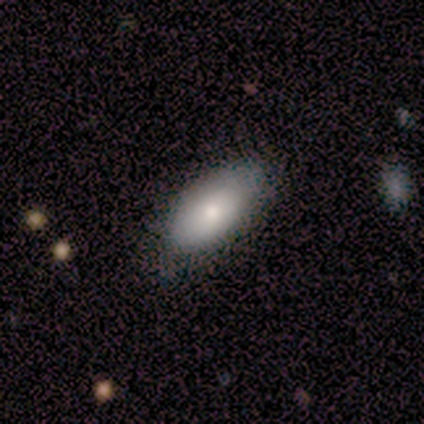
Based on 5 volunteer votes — Smooth or featured?
  - smooth: 100% *
  - featured or disk: 0%
  - star or artifact: 0%
How rounded?
  - in between: 100% *
  - round: 0%
  - cigar-shaped: 0%
Merging?
  - none: 100% *
  - minor disturbance: 0%
  - major disturbance: 0%
  - merger: 0%